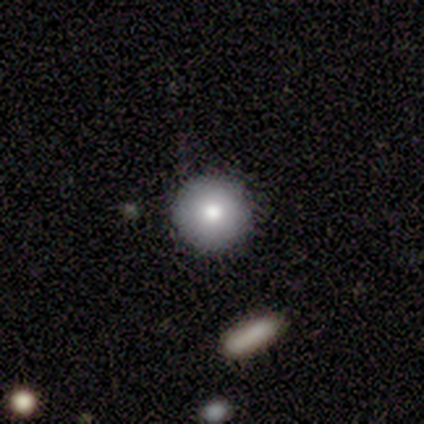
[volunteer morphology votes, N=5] Overall: smooth (100%). How rounded: round (100%). Merging: none (100%).